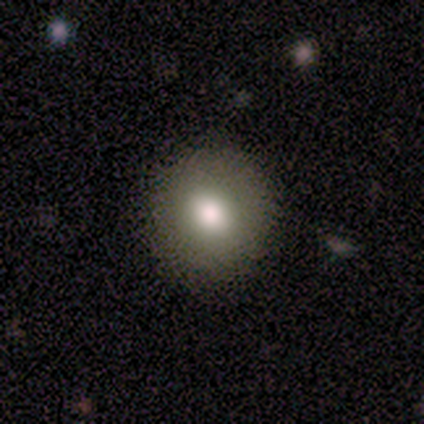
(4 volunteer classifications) Smooth or featured? smooth (100%)
How rounded? round (100%)
Merging? none (100%)